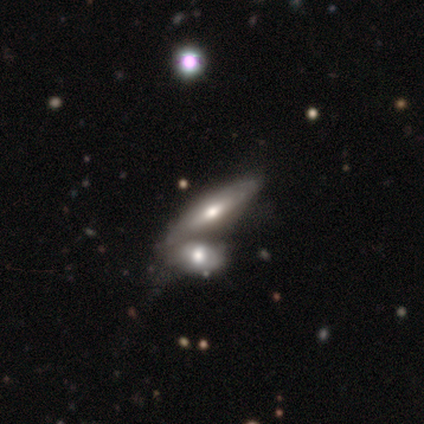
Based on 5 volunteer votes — featured or disk 60%, smooth 20%, star or artifact 20%. Down the decision tree: edge-on disk — yes (100%); edge-on bulge — rounded (67%); merging — merger (75%).